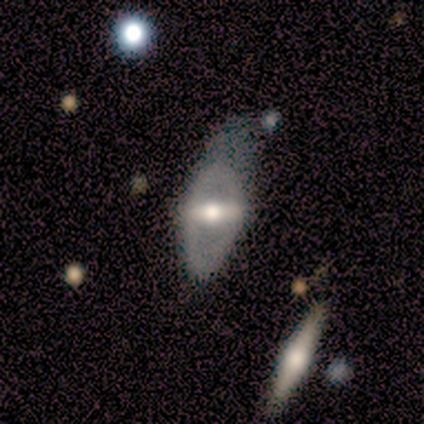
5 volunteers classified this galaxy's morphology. Q: Smooth or featured?
A: smooth (40%); tied with: featured or disk (40%)
Q: How rounded?
A: in between (100%)
Q: Merging?
A: none (50%); runner-up: minor disturbance (25%)